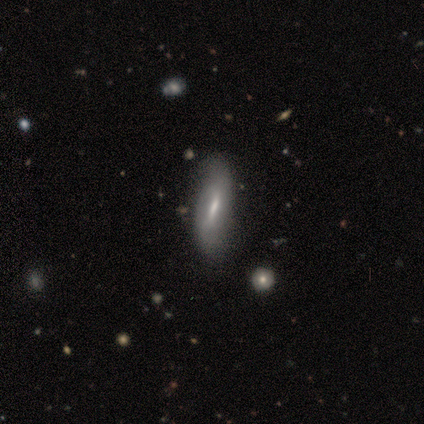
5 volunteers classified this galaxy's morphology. Volunteers were most divided on "spiral arm count" (2-way tie): 1: 50%, 2: 50%, 3: 0%, 4: 0%, more than 4: 0%, can't tell: 0%. More confident: spiral winding — loose (100%); smooth or featured — featured or disk (80%); edge-on disk — no (75%); bar — strong (67%); spiral arms — yes (67%); bulge size — small (67%); merging — none (60%).